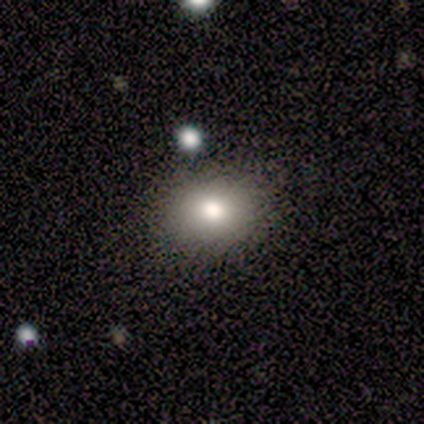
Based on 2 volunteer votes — Smooth or featured?
  - smooth: 100% *
  - featured or disk: 0%
  - star or artifact: 0%
How rounded?
  - round: 50% * (tied)
  - in between: 50% * (tied)
  - cigar-shaped: 0%
Merging?
  - none: 100% *
  - minor disturbance: 0%
  - major disturbance: 0%
  - merger: 0%